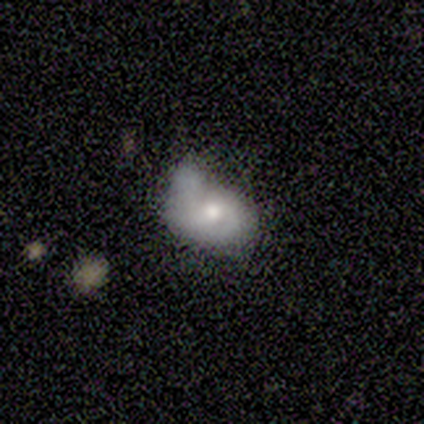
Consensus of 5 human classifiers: featured or disk 60%, smooth 40%, star or artifact 0%. Down the decision tree: edge-on disk — no (100%); bar — weak (67%); spiral arms — yes (100%); spiral arm count — 2 (100%); spiral winding — medium (67%); bulge size — moderate (67%); merging — none (40%, tied with minor disturbance).